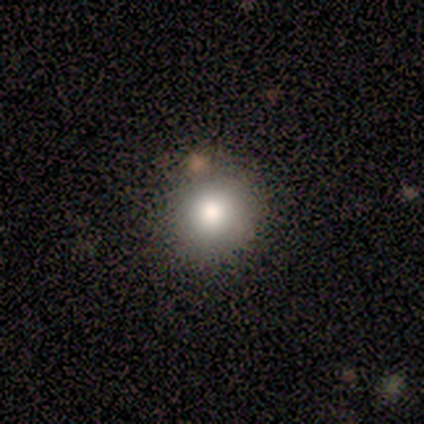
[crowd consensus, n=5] Smooth or featured? 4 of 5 (80%) said smooth. How rounded? 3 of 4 (75%) said round. Merging? 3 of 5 (60%) said minor disturbance.